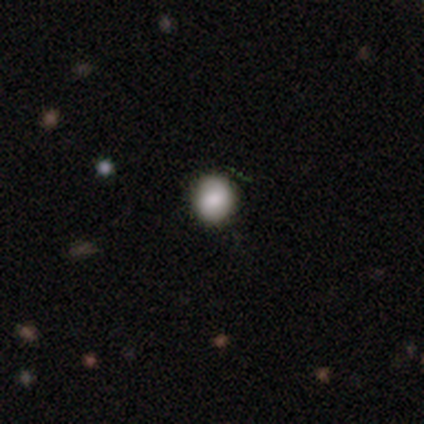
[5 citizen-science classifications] Q: Smooth or featured?
A: smooth (100%)
Q: How rounded?
A: round (60%); runner-up: in between (40%)
Q: Merging?
A: none (100%)